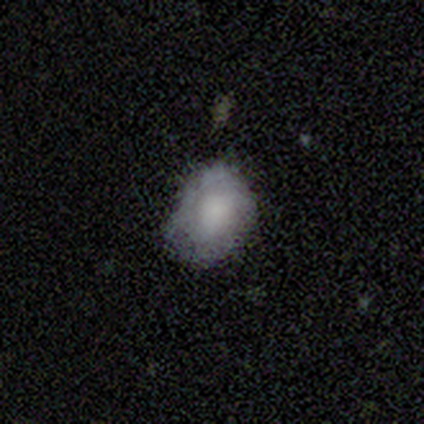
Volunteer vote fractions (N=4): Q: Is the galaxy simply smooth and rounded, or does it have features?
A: smooth — 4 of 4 (100%).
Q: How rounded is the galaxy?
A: in between — 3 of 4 (75%).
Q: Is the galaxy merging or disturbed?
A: minor disturbance — 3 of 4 (75%).